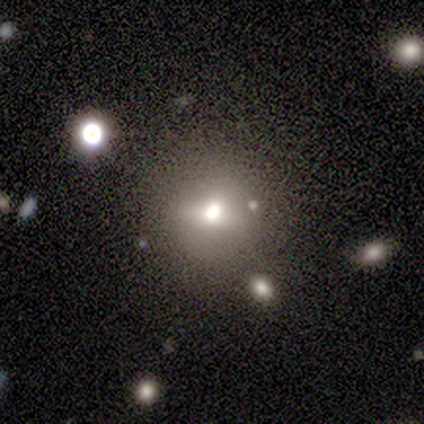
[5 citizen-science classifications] This is marginally a smooth galaxy (40%, tied with featured or disk). How rounded: clearly round (100%). Merging: clearly none (100%).